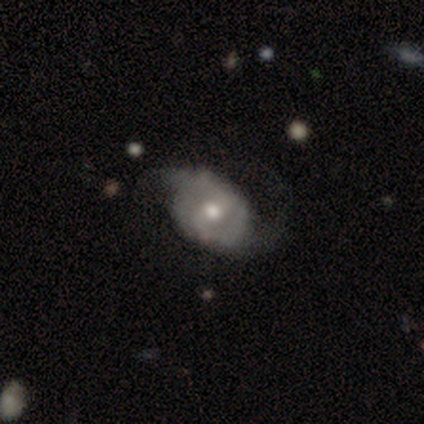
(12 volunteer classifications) This appears to be a featured or disk galaxy (92%) with a weak bar (50%), 2 (71%) loose (71%) spiral arms (70%) and a moderate central bulge (100%). Merging: none (45%, tied with minor disturbance).